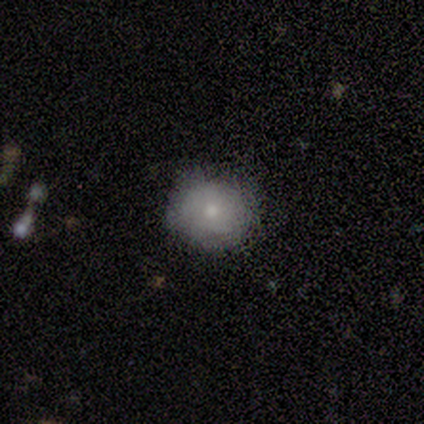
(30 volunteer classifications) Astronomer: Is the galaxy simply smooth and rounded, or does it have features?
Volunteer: smooth — 63%.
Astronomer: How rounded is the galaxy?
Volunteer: round — 95%.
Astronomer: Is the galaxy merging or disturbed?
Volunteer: none — 85%.